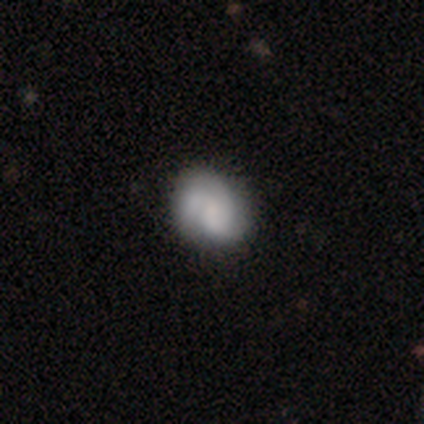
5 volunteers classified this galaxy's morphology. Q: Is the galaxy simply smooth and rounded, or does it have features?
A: smooth — 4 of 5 (80%).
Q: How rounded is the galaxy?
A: round — 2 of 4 (50%, tied with in between).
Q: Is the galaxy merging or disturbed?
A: none — 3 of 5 (60%).